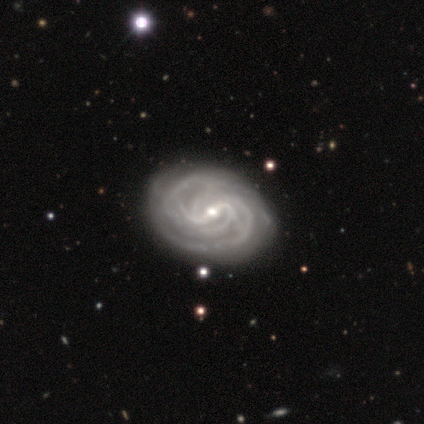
smooth-or-featured: featured or disk: 88% | smooth: 10% | star or artifact: 2%
  disk-edge-on: no: 94% | yes: 6%
    bar: weak: 52% | strong: 39% | no: 9%
    has-spiral-arms: yes: 100% | no: 0%
      spiral-winding: tight: 76% | medium: 24% | loose: 0%
      spiral-arm-count: 4: 30% | more than 4: 27% | can't tell: 24% | 2: 15% | 3: 3% | 1: 0%
    bulge-size: small: 73% | moderate: 27% | dominant: 0% | large: 0% | none: 0%
  merging: none: 74% | minor disturbance: 21% | major disturbance: 3% | merger: 3%